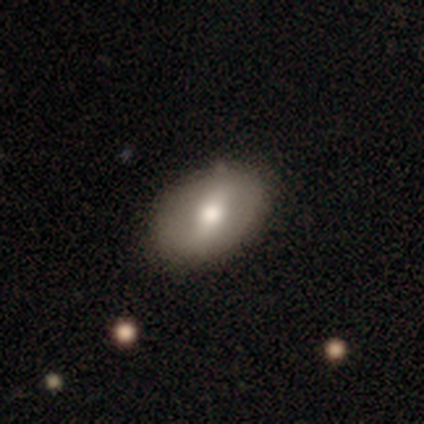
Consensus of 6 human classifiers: A smooth galaxy with no disk features (50%, tied with featured or disk) that is round (67%).

Vote fractions:
- Smooth or featured? smooth: 50% (tied) / featured or disk: 50% (tied) / star or artifact: 0%
- How rounded? round: 67% / in between: 33% / cigar-shaped: 0%
- Merging? none: 83% / merger: 17% / minor disturbance: 0% / major disturbance: 0%